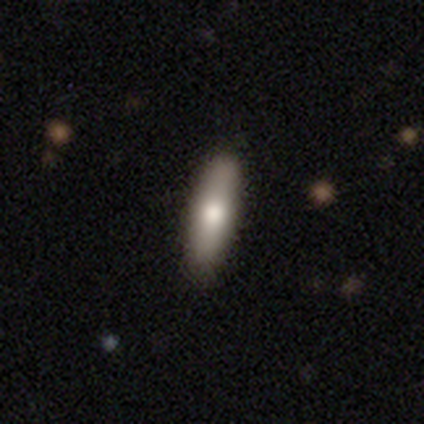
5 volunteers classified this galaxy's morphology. Smooth or featured: smooth — 100%
How rounded: cigar-shaped — 60% (in between — 40%)
Merging: none — 100%